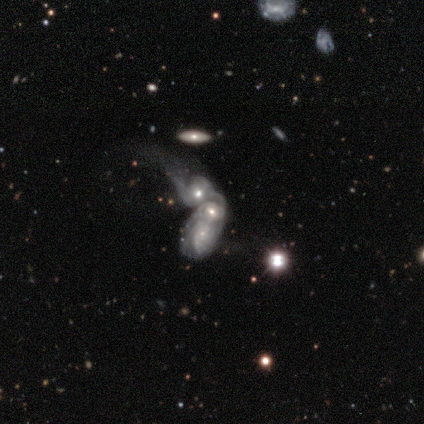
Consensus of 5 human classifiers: Morphology: type=featured or disk (100%); edge-on=no (100%); bar=no (80%); spiral arms=yes (100%); winding=tight (80%); arm count=can't tell (100%); bulge=moderate (60%); merging=merger (100%).